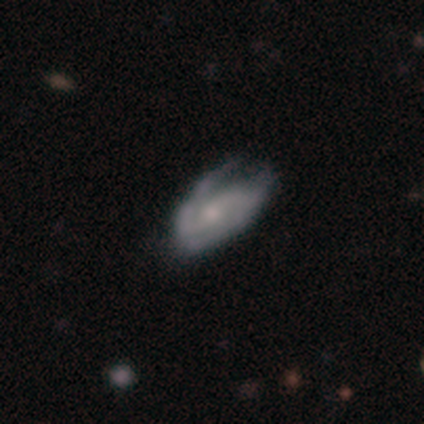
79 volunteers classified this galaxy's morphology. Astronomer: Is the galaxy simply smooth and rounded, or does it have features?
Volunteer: featured or disk — 81%.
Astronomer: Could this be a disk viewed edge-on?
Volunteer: no — 94%.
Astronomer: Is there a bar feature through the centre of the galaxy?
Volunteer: no — 48% (runner-up: weak, 37%).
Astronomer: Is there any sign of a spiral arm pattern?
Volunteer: yes — 92%.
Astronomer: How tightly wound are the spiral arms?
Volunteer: medium — 42% (runner-up: tight, 35%).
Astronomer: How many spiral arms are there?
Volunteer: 2 — 80%.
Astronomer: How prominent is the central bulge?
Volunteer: small — 53% (runner-up: moderate, 33%).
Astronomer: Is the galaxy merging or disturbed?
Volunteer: none — 19%, tied with minor disturbance at 19%.